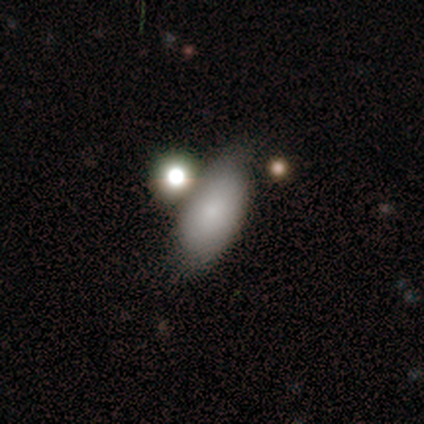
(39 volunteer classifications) This appears to be a smooth galaxy with no disk features (77%) that is in between round and cigar-shaped (93%). Merging: none (51%).